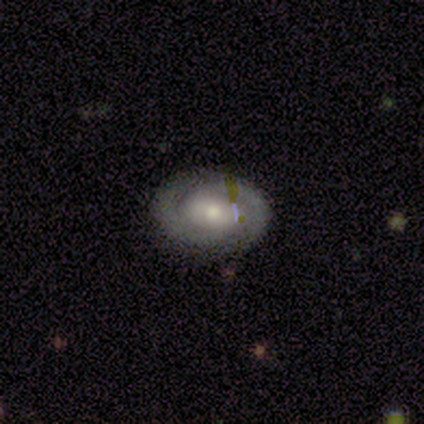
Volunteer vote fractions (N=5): Q: Smooth or featured?
A: featured or disk (80%); runner-up: smooth (20%)
Q: Edge-on disk?
A: no (100%)
Q: Bar?
A: no (100%)
Q: Spiral arms?
A: yes (100%)
Q: Spiral winding?
A: tight (100%)
Q: Spiral arm count?
A: 2 (100%)
Q: Bulge size?
A: moderate (75%); runner-up: small (25%)
Q: Merging?
A: none (100%)